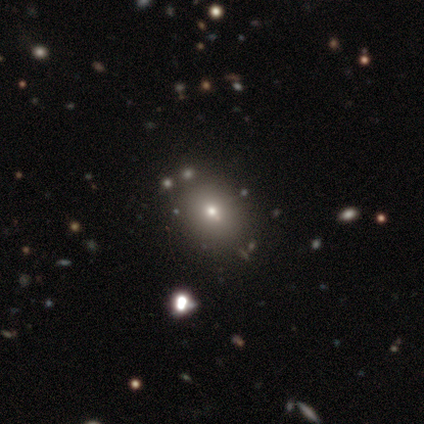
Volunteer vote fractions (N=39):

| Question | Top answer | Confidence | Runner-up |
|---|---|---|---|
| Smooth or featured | smooth | 64% | star or artifact (21%) |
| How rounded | round | 52% | in between (48%) |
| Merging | none | 84% | minor disturbance (10%) |